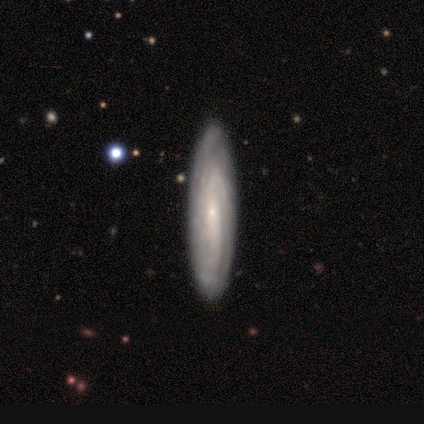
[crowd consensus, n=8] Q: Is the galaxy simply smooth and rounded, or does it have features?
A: featured or disk — 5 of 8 (62%).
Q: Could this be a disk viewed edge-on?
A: no — 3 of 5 (60%).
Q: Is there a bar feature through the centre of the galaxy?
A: no — 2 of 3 (67%).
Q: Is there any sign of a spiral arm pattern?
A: yes — 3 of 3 (100%).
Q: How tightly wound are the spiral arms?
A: medium — 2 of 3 (67%).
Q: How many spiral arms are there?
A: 3 — 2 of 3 (67%).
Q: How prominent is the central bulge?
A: small — 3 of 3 (100%).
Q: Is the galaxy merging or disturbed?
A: none — 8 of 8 (100%).